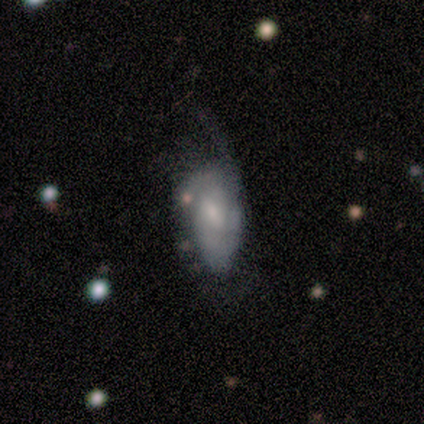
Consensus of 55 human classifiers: A featured or disk galaxy (69%) with no bar (53%), 2 (43%) medium (54%) spiral arms (74%) and a small central bulge (53%).

Vote fractions:
- Smooth or featured? featured or disk: 69% / smooth: 20% / star or artifact: 11%
- Edge-on disk? no: 100% / yes: 0%
- Bar? no: 53% / weak: 39% / strong: 8%
- Spiral arms? yes: 74% / no: 26%
- Spiral winding? medium: 54% / tight: 39% / loose: 7%
- Spiral arm count? 2: 43% / 1: 25% / can't tell: 21% / 3: 11% / 4: 0% / more than 4: 0%
- Bulge size? small: 53% / moderate: 26% / none: 13% / large: 8% / dominant: 0%
- Merging? major disturbance: 41% / none: 27% / minor disturbance: 24% / merger: 8%